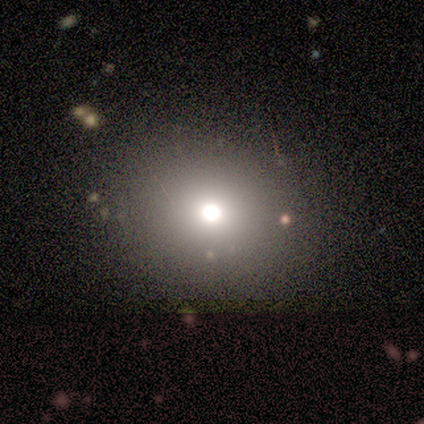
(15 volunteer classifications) Smooth or featured: smooth — 53% (star or artifact — 33%)
How rounded: round — 100%
Merging: none — 100%